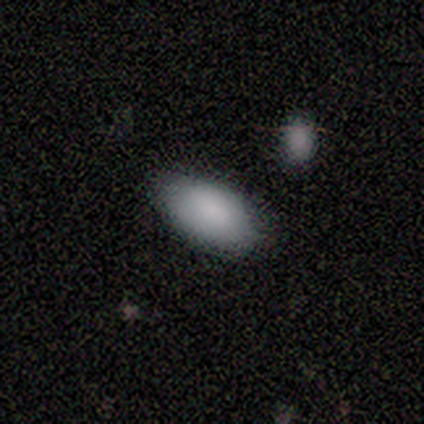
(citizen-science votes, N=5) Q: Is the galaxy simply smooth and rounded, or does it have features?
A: smooth — 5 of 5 (100%).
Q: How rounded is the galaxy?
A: in between — 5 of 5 (100%).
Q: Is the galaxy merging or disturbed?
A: none — 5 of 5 (100%).